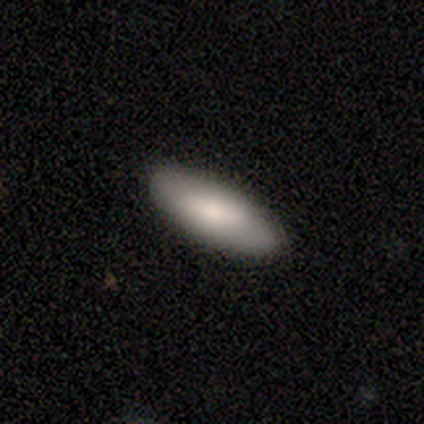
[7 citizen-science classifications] Overall: smooth (86%). How rounded: in between (67%; cigar-shaped 33%). Merging: none (100%).